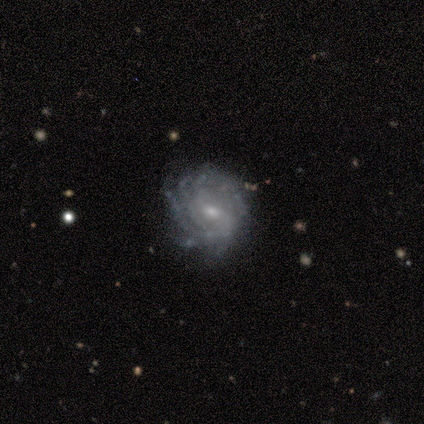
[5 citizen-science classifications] featured or disk 100%, smooth 0%, star or artifact 0%. Down the decision tree: edge-on disk — no (100%); bar — weak (60%); spiral arms — yes (100%); spiral arm count — can't tell (40%); spiral winding — tight (80%); bulge size — small (80%); merging — none (80%).